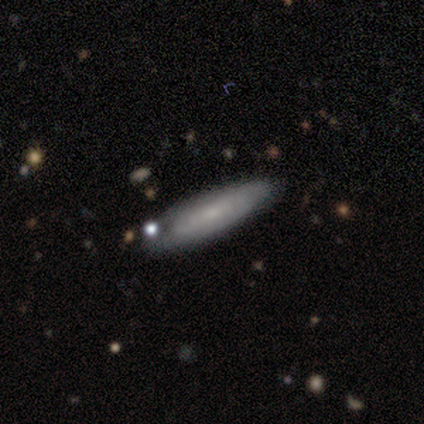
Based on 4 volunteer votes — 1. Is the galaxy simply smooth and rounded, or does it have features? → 50% smooth (tied), 50% featured or disk (tied), 0% star or artifact.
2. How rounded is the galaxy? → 50% in between (tied), 50% cigar-shaped (tied), 0% round.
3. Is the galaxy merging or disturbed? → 75% none, 25% minor disturbance, 0% major disturbance, 0% merger.